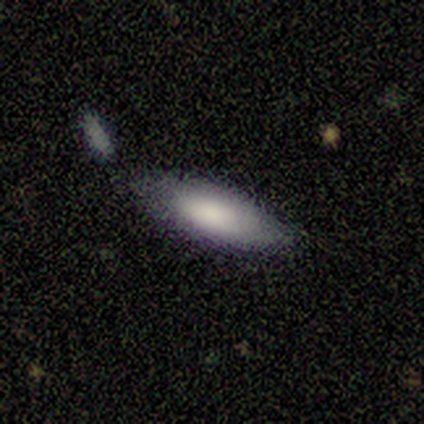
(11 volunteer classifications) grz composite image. It shows a featured or disk galaxy (45%) with a weak bar (67%), medium (67%) spiral arms (100%) and a moderate central bulge (67%). Merging: none (62%).